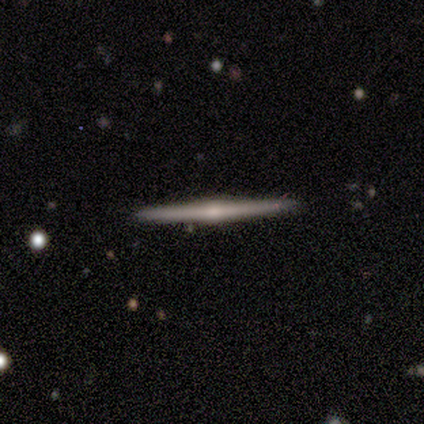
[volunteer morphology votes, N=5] A featured or disk galaxy (80%) viewed edge-on (100%) with a rounded central bulge (100%).

Vote fractions:
- Smooth or featured? featured or disk: 80% / smooth: 20% / star or artifact: 0%
- Edge-on disk? yes: 100% / no: 0%
- Edge-on bulge? rounded: 100% / boxy: 0% / none: 0%
- Merging? none: 100% / minor disturbance: 0% / major disturbance: 0% / merger: 0%